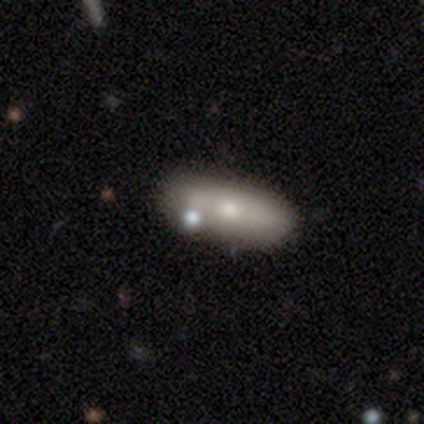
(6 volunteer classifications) smooth 50%, featured or disk 33%, star or artifact 17%. Down the decision tree: how rounded — in between (67%); merging — none (40%, tied with minor disturbance).